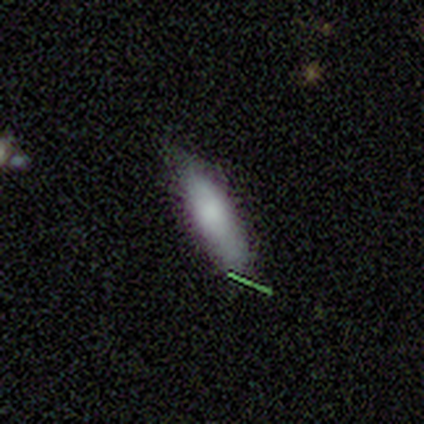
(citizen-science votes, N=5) Smooth or featured? 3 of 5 (60%) said smooth. How rounded? 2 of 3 (67%) said cigar-shaped. Merging? 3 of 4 (75%) said none.